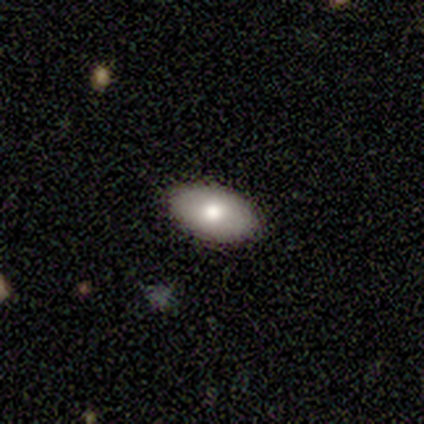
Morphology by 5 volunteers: Volunteers were most divided on "smooth or featured": smooth: 60%, featured or disk: 40%, star or artifact: 0%. More confident: how rounded — in between (100%); merging — none (100%).